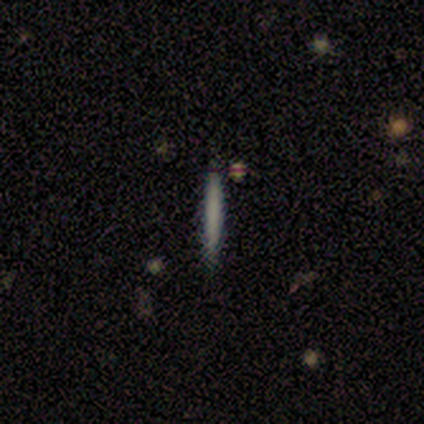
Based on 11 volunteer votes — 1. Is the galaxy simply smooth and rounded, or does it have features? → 100% smooth, 0% featured or disk, 0% star or artifact.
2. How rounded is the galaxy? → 100% cigar-shaped, 0% round, 0% in between.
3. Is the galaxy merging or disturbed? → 91% none, 9% minor disturbance, 0% major disturbance, 0% merger.